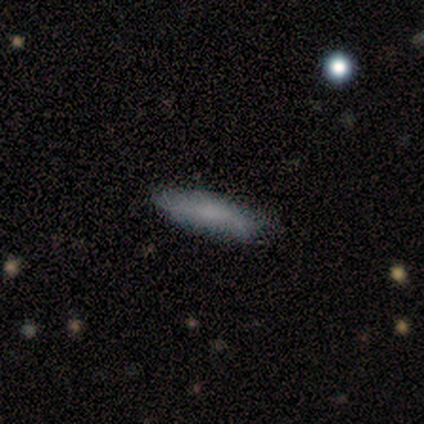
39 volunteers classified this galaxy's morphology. A smooth galaxy with no disk features (82%) that is cigar-shaped (66%).

Vote fractions:
- Smooth or featured? smooth: 82% / featured or disk: 10% / star or artifact: 8%
- How rounded? cigar-shaped: 66% / in between: 34% / round: 0%
- Merging? none: 89% / minor disturbance: 6% / major disturbance: 6% / merger: 0%